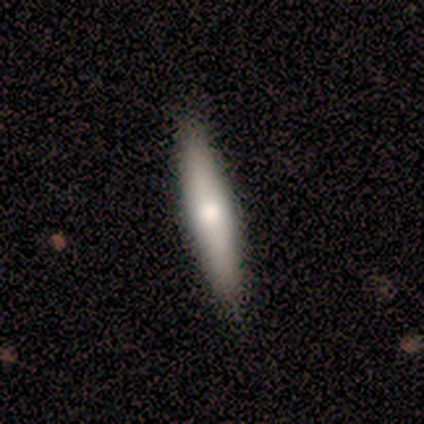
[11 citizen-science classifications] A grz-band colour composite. It shows a smooth galaxy with no disk features (55%) that is cigar-shaped (100%). Merging: none (100%).